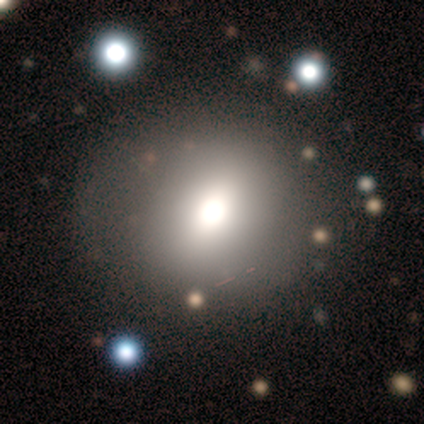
Smooth or featured? 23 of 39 (59%) said smooth. How rounded? 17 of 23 (74%) said round. Merging? 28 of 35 (80%) said none.